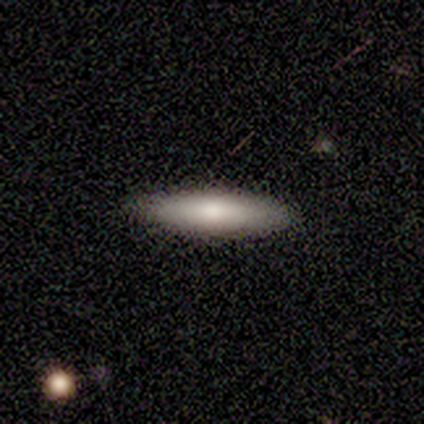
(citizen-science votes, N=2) smooth-or-featured: smooth: 100% | featured or disk: 0% | star or artifact: 0%
  how-rounded: cigar-shaped: 100% | round: 0% | in between: 0%
  merging: none: 100% | minor disturbance: 0% | major disturbance: 0% | merger: 0%